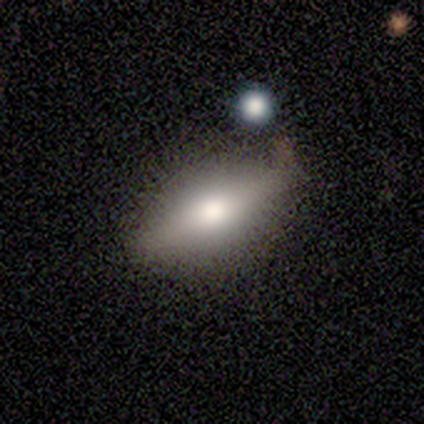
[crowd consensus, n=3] This is likely a smooth galaxy (67%). How rounded: possibly in between (50%, tied with cigar-shaped). Merging: clearly none (100%).